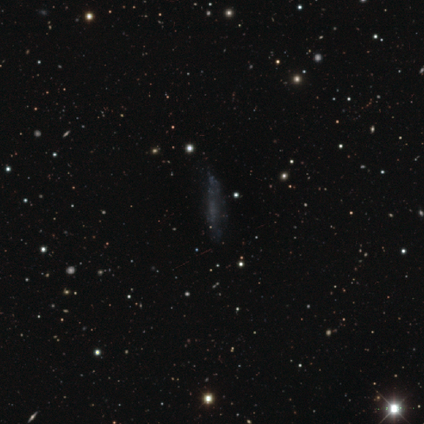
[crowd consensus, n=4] A smooth galaxy with no disk features (50%, tied with featured or disk) that is in between round and cigar-shaped (50%, tied with cigar-shaped).

Vote fractions:
- Smooth or featured? smooth: 50% (tied) / featured or disk: 50% (tied) / star or artifact: 0%
- How rounded? in between: 50% (tied) / cigar-shaped: 50% (tied) / round: 0%
- Merging? none: 50% / minor disturbance: 25% / major disturbance: 25% / merger: 0%